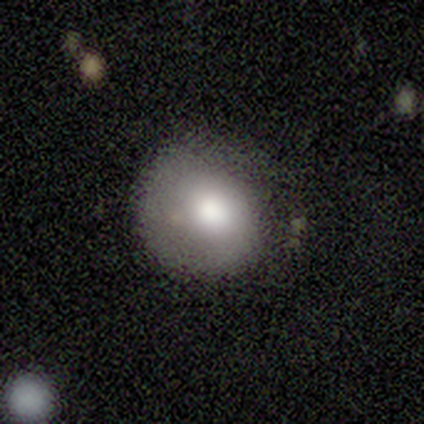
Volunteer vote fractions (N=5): Smooth or featured? 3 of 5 (60%) said smooth. How rounded? 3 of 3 (100%) said round. Merging? 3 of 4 (75%) said none.